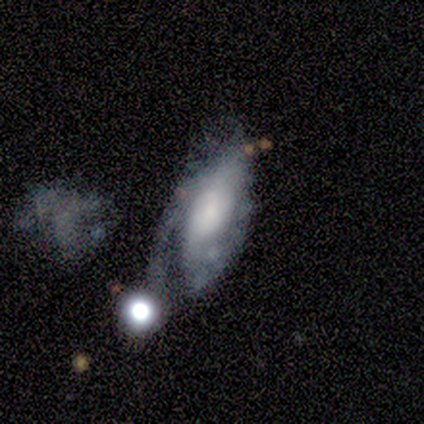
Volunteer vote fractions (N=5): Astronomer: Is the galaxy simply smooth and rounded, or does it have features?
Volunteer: smooth — 40%, tied with featured or disk at 40%.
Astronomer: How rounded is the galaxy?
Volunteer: in between — 100%.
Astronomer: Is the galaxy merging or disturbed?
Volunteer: major disturbance — 50%.